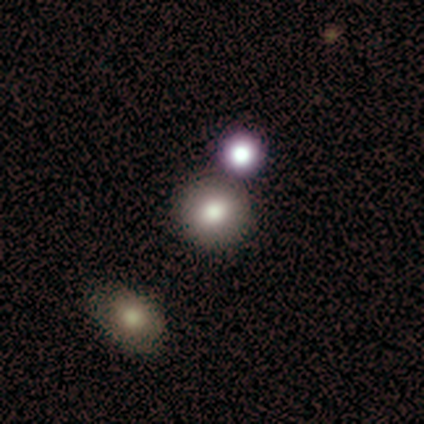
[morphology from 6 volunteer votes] Q: Smooth or featured?
A: smooth (83%); runner-up: star or artifact (17%)
Q: How rounded?
A: round (100%)
Q: Merging?
A: none (100%)